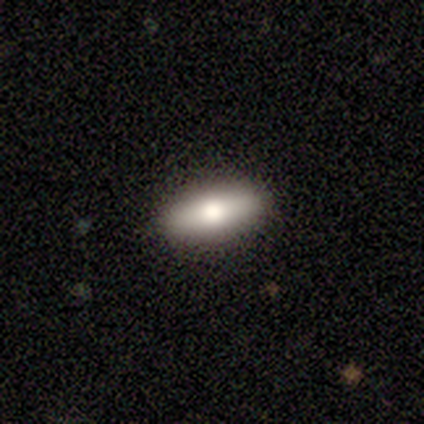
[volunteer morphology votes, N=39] Q: Smooth or featured?
A: smooth (62%); runner-up: featured or disk (26%)
Q: How rounded?
A: in between (75%); runner-up: cigar-shaped (21%)
Q: Merging?
A: none (91%); runner-up: major disturbance (6%)